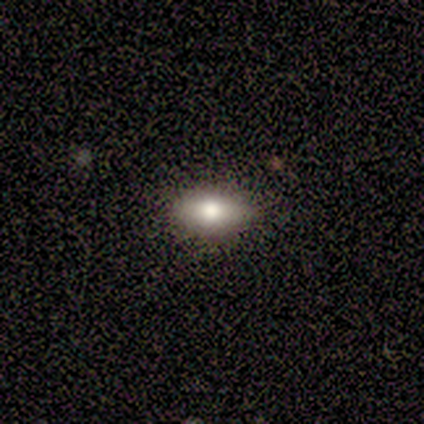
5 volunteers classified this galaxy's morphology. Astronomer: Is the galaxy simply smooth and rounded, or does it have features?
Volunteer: smooth — 80%.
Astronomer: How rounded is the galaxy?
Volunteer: in between — 75%.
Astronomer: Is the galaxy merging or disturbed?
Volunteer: none — 80%.